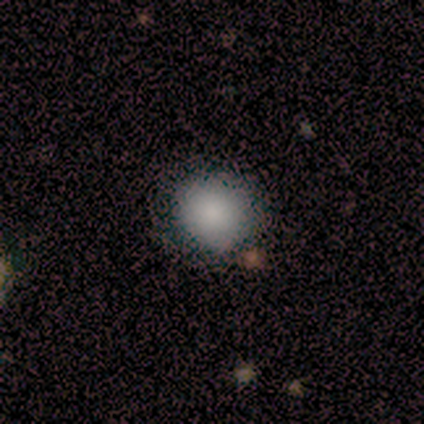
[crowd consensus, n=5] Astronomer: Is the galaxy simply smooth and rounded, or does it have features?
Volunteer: smooth — 100%.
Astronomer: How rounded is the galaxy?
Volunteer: round — 100%.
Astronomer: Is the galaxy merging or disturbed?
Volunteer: none — 100%.